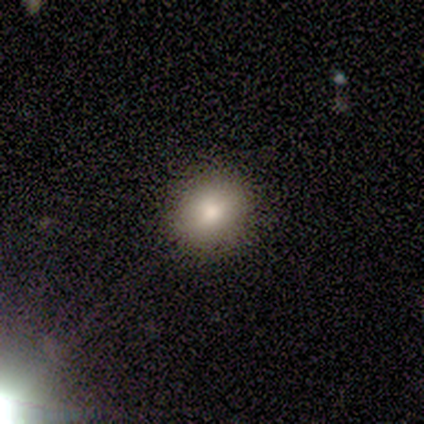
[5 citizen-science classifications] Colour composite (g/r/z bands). It shows a smooth galaxy with no disk features (100%) that is round (80%). Merging: none (100%).